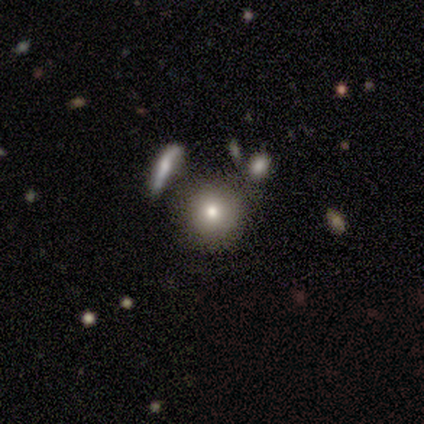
A smooth galaxy with no disk features (67%) that is round (100%).

Vote fractions:
- Smooth or featured? smooth: 67% / star or artifact: 33% / featured or disk: 0%
- How rounded? round: 100% / in between: 0% / cigar-shaped: 0%
- Merging? none: 100% / minor disturbance: 0% / major disturbance: 0% / merger: 0%